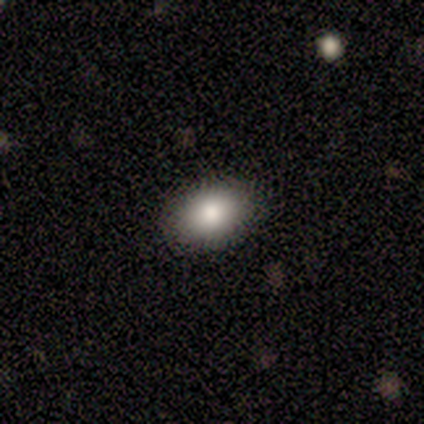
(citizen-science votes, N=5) Overall: smooth (100%). How rounded: in between (80%). Merging: none (100%).